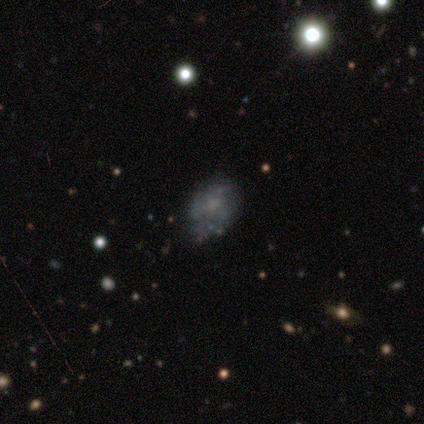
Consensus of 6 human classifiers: smooth_or_featured: featured or disk (p=0.67) [alt: smooth p=0.17]
disk_edge_on: no (p=1.00)
bar: no (p=0.75) [alt: weak p=0.25]
has_spiral_arms: no (p=0.75) [alt: yes p=0.25]
bulge_size: none (p=0.50) [alt: large p=0.25]
merging: minor disturbance (p=0.60) [alt: major disturbance p=0.20]